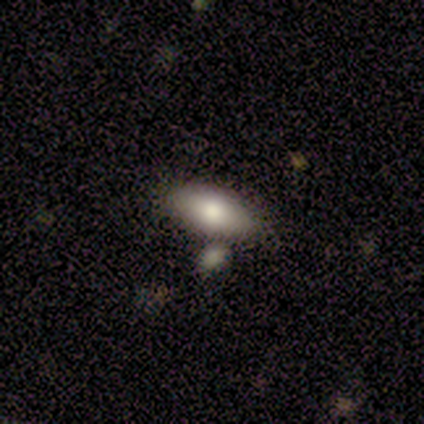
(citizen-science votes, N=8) Smooth or featured?
  - smooth: 75% *
  - featured or disk: 25%
  - star or artifact: 0%
How rounded?
  - in between: 100% *
  - round: 0%
  - cigar-shaped: 0%
Merging?
  - none: 75% *
  - minor disturbance: 12%
  - major disturbance: 12%
  - merger: 0%